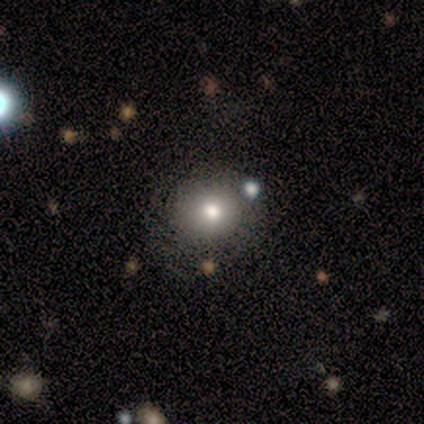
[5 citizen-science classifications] Morphology: type=smooth (100%); roundness=round (100%); merging=none (40%, tied with minor disturbance).